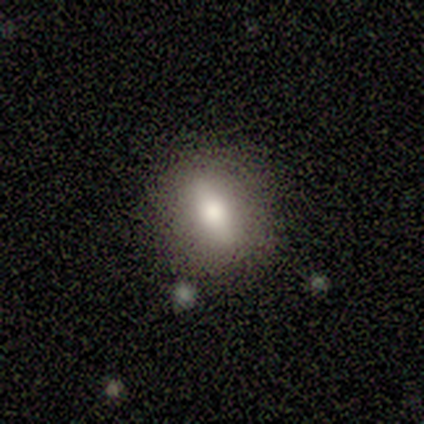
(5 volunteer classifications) Q: Smooth or featured?
A: featured or disk (60%); runner-up: smooth (40%)
Q: Edge-on disk?
A: no (67%); runner-up: yes (33%)
Q: Bar?
A: strong (100%)
Q: Spiral arms?
A: no (100%)
Q: Bulge size?
A: large (50%); tied with: moderate (50%)
Q: Merging?
A: none (80%); runner-up: minor disturbance (20%)